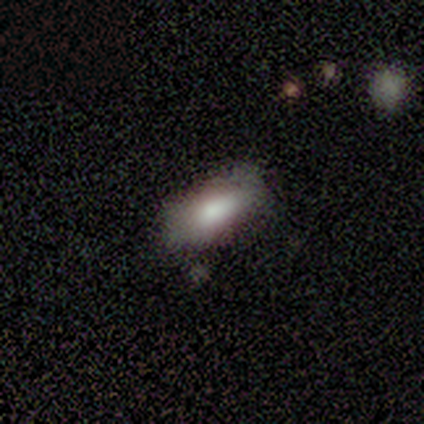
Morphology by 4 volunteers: Volunteers were most divided on "merging": none: 75%, minor disturbance: 25%, major disturbance: 0%, merger: 0%. More confident: smooth or featured — smooth (100%); how rounded — in between (100%).